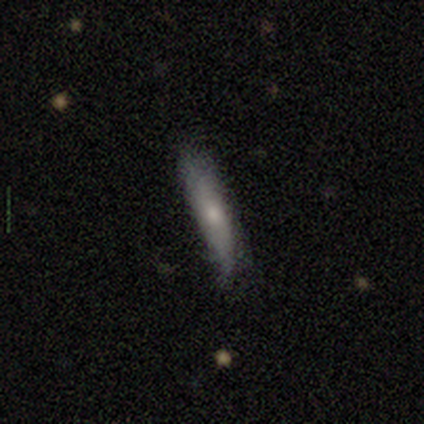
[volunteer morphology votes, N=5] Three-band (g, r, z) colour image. It shows a featured or disk galaxy (60%) viewed edge-on (100%) with a rounded central bulge (100%). Merging: none (50%, tied with minor disturbance).